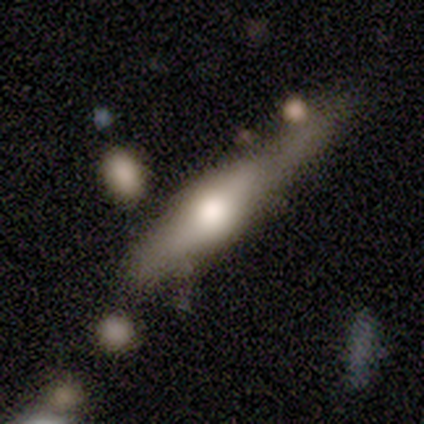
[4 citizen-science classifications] Volunteers were most divided on "smooth or featured" (2-way tie): smooth: 50%, featured or disk: 50%, star or artifact: 0%; "merging" (2-way tie): none: 50%, minor disturbance: 50%, major disturbance: 0%, merger: 0%. More confident: how rounded — cigar-shaped (100%).